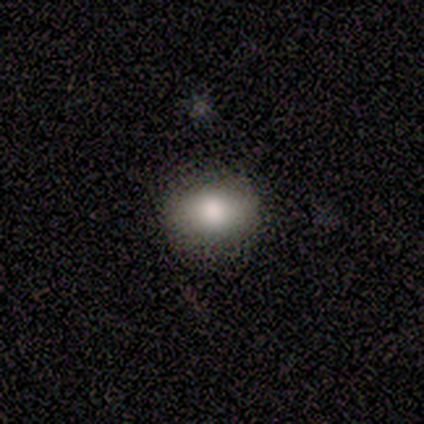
Overall: smooth (100%). How rounded: in between (80%). Merging: none (100%).